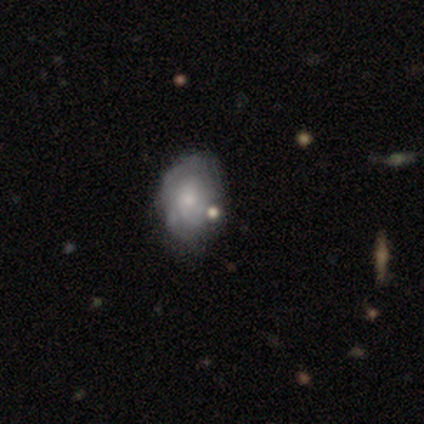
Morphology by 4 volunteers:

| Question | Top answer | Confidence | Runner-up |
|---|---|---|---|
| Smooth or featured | smooth | 75% | star or artifact (25%) |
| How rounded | in between | 67% | round (33%) |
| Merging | major disturbance | 67% | minor disturbance (33%) |